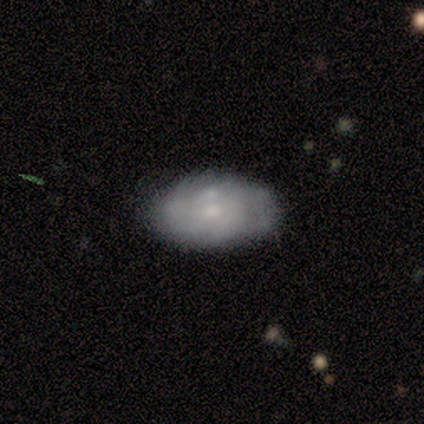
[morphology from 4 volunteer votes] This is likely a featured or disk galaxy (75%). It is clearly not viewed edge-on (100%). Bar: likely no (67%). Spiral arm pattern: likely no (67%). Central bulge: likely moderate (67%). Merging: likely merger (75%).